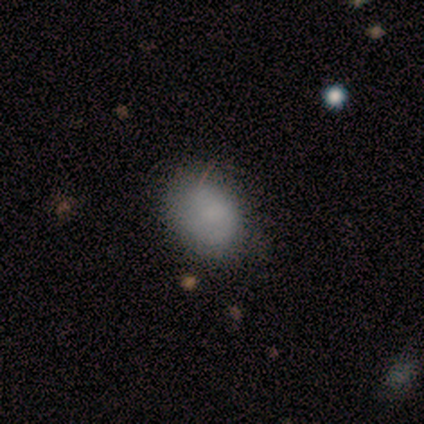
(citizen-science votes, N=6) Overall: smooth (83%). How rounded: in between (60%; round 40%). Merging: none (50%; minor disturbance 33%).